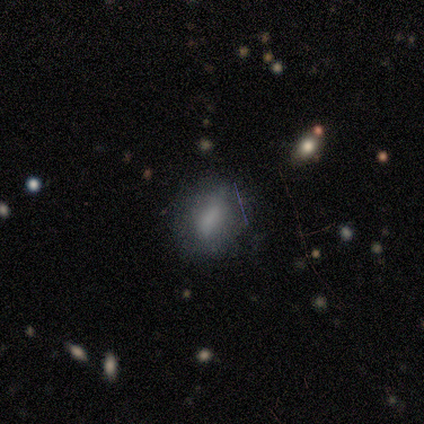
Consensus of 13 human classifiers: Q: Smooth or featured?
A: smooth (92%); runner-up: star or artifact (8%)
Q: How rounded?
A: in between (83%); runner-up: round (17%)
Q: Merging?
A: none (75%); runner-up: minor disturbance (17%)